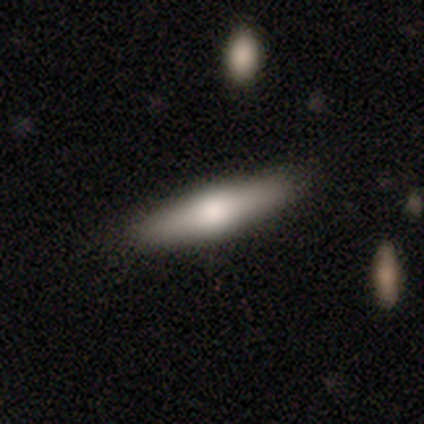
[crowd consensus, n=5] Smooth or featured? 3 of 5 (60%) said smooth. How rounded? 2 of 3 (67%) said in between. Merging? 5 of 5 (100%) said none.